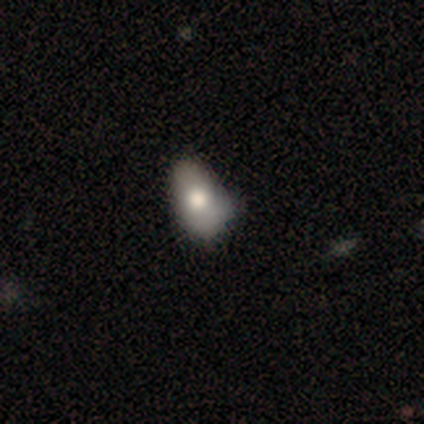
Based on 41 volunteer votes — This is likely a smooth galaxy (71%). How rounded: clearly in between (97%). Merging: possibly minor disturbance (56%).